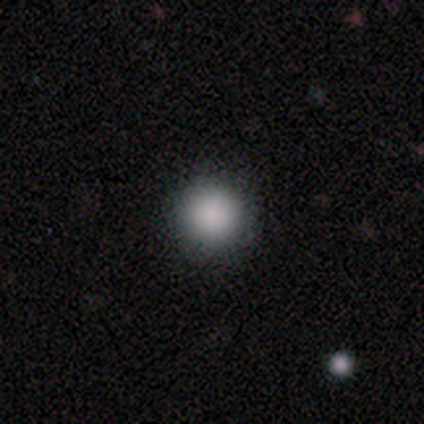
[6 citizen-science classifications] This appears to be a smooth galaxy with no disk features (100%) that is round (100%). Merging: none (83%).